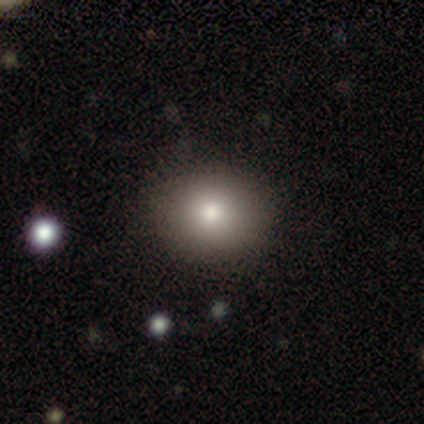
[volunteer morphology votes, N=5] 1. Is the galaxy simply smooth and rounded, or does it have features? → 100% smooth, 0% featured or disk, 0% star or artifact.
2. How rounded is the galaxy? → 60% round, 40% in between, 0% cigar-shaped.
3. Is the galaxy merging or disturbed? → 100% none, 0% minor disturbance, 0% major disturbance, 0% merger.